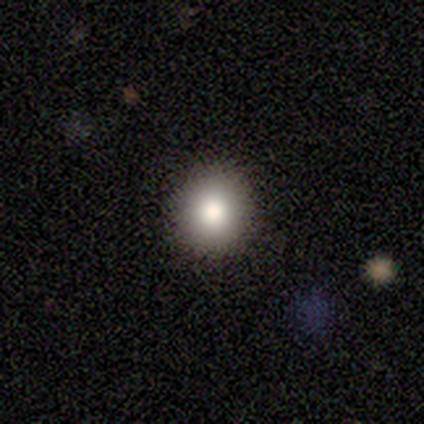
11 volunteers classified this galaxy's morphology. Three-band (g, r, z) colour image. It shows a smooth galaxy with no disk features (91%) that is round (90%). Merging: none (100%).